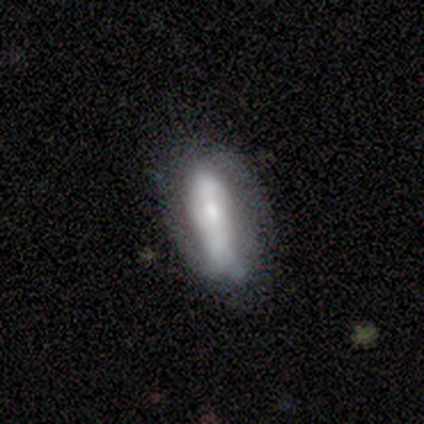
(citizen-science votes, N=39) Smooth or featured? 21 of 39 (54%) said featured or disk. Edge-on disk? 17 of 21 (81%) said no. Bar? 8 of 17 (47%) said no. Spiral arms? 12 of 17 (71%) said no. Bulge size? 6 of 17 (35%, tied with small) said moderate. Merging? 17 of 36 (47%) said none.